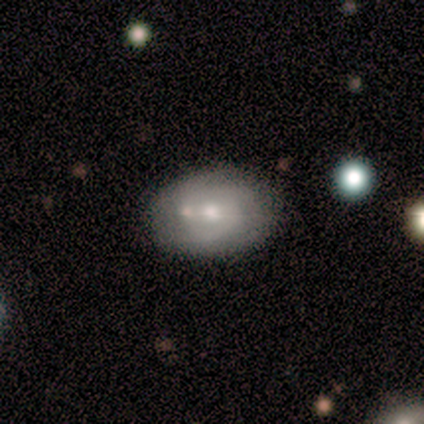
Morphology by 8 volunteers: featured or disk 62%, smooth 38%, star or artifact 0%. Down the decision tree: edge-on disk — no (100%); bar — no (60%); spiral arms — yes (60%); spiral arm count — 2 (67%); spiral winding — medium (100%); bulge size — small (60%); merging — none (62%).